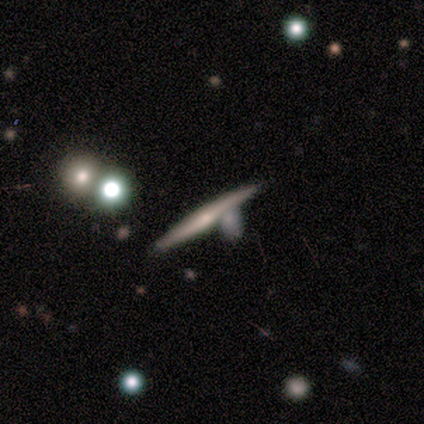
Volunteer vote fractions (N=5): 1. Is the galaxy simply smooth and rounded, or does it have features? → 60% smooth, 40% featured or disk, 0% star or artifact.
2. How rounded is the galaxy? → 100% cigar-shaped, 0% round, 0% in between.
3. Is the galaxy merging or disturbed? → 80% none, 20% minor disturbance, 0% major disturbance, 0% merger.